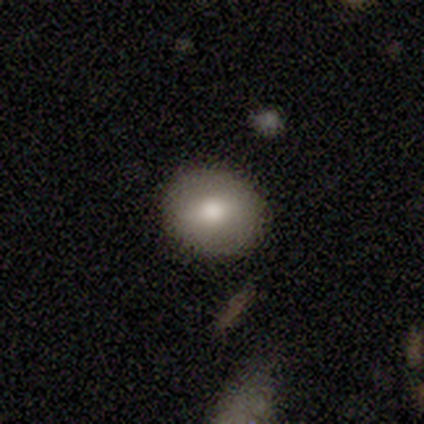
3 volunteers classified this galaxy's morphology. This is clearly a smooth galaxy (100%). How rounded: likely round (67%). Merging: clearly none (100%).